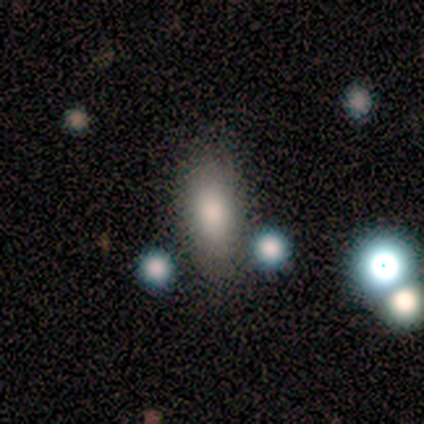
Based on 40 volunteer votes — Volunteers were most divided on "merging": none: 68%, minor disturbance: 24%, major disturbance: 5%, merger: 3%. More confident: how rounded — in between (81%); smooth or featured — smooth (80%).